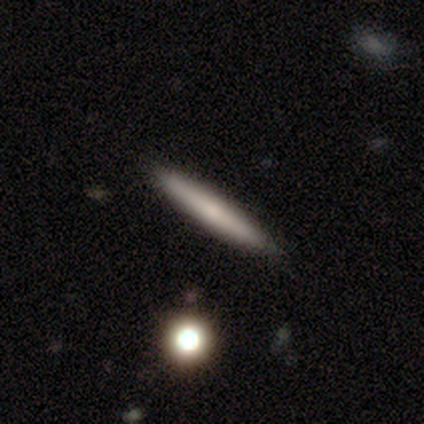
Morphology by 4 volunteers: Q: Smooth or featured?
A: featured or disk (50%); runner-up: smooth (25%)
Q: Edge-on disk?
A: yes (100%)
Q: Edge-on bulge?
A: rounded (100%)
Q: Merging?
A: none (100%)